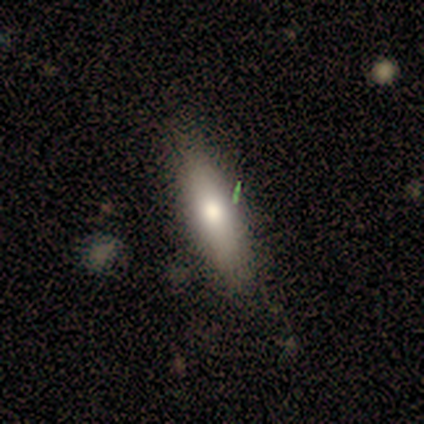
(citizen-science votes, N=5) Smooth or featured? 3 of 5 (60%) said smooth. How rounded? 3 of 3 (100%) said cigar-shaped. Merging? 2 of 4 (50%, tied with minor disturbance) said none.